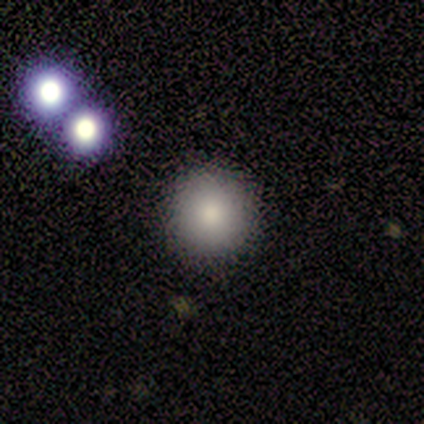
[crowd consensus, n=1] Morphology: type=smooth (100%); roundness=round (100%); merging=none (100%).